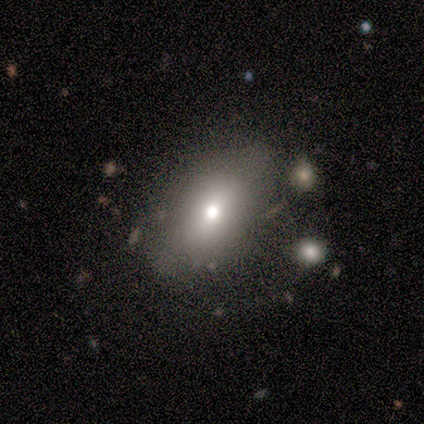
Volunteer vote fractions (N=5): smooth-or-featured: smooth: 40% (tied) | featured or disk: 40% (tied) | star or artifact: 20%
  how-rounded: in between: 100% | round: 0% | cigar-shaped: 0%
  merging: none: 75% | minor disturbance: 25% | major disturbance: 0% | merger: 0%